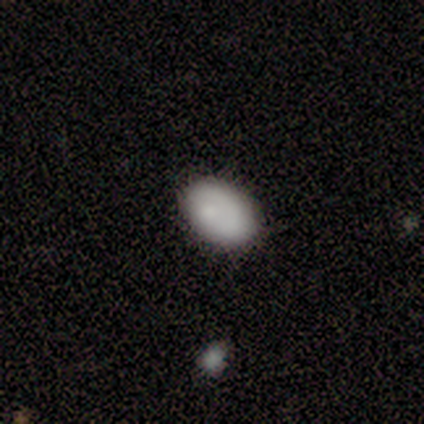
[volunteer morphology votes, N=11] Smooth or featured?
  - smooth: 91% *
  - star or artifact: 9%
  - featured or disk: 0%
How rounded?
  - in between: 90% *
  - round: 10%
  - cigar-shaped: 0%
Merging?
  - none: 100% *
  - minor disturbance: 0%
  - major disturbance: 0%
  - merger: 0%